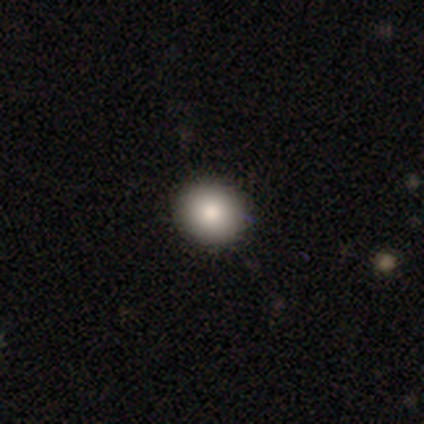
This is clearly a smooth galaxy (87%). How rounded: clearly round (88%). Merging: clearly none (95%).